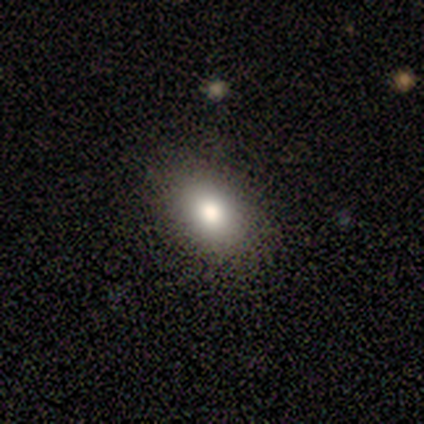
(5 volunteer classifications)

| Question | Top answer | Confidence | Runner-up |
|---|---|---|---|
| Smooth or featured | smooth | 60% | star or artifact (40%) |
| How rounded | in between | 100% | — |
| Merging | none | 100% | — |